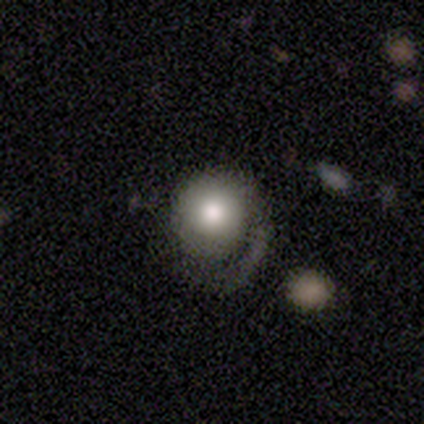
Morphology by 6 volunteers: Volunteers were most divided on "merging": none: 50%, minor disturbance: 33%, major disturbance: 17%, merger: 0%. More confident: how rounded — round (100%); smooth or featured — smooth (67%).